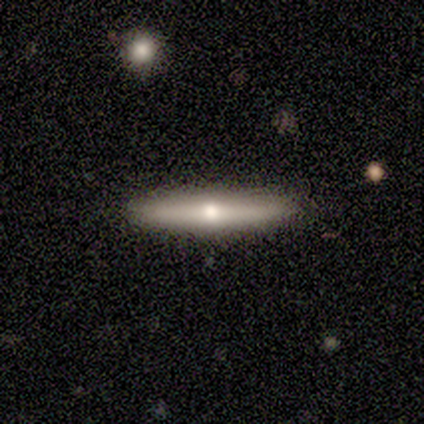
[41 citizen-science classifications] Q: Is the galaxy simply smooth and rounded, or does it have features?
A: featured or disk — 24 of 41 (59%).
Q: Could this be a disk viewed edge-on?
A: yes — 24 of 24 (100%).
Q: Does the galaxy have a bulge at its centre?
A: rounded — 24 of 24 (100%).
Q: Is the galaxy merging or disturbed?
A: none — 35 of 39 (90%).